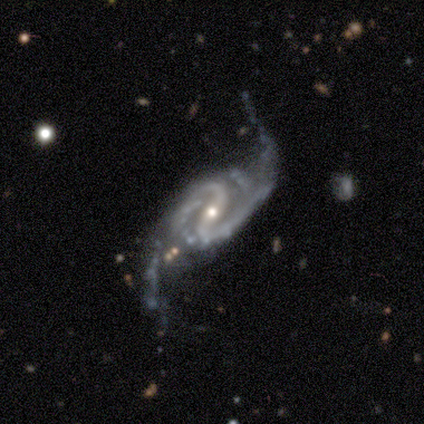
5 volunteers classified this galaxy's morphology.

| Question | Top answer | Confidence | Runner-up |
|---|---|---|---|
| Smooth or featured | featured or disk | 100% | — |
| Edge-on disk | no | 100% | — |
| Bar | strong | 60% | weak (40%) |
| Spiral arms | yes | 100% | — |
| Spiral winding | medium | 80% | loose (20%) |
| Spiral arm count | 2 | 100% | — |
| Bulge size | moderate | 80% | small (20%) |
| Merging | none | 60% | minor disturbance (40%) |